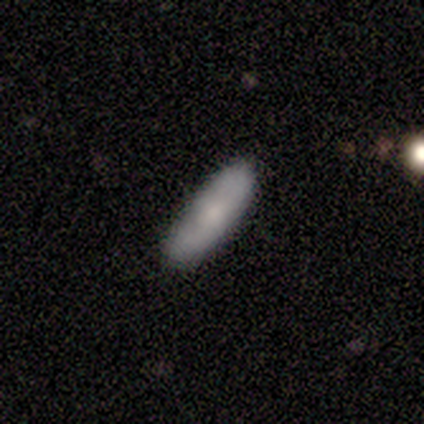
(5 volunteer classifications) Volunteers were most divided on "how rounded": cigar-shaped: 60%, in between: 40%, round: 0%. More confident: smooth or featured — smooth (100%); merging — none (60%).